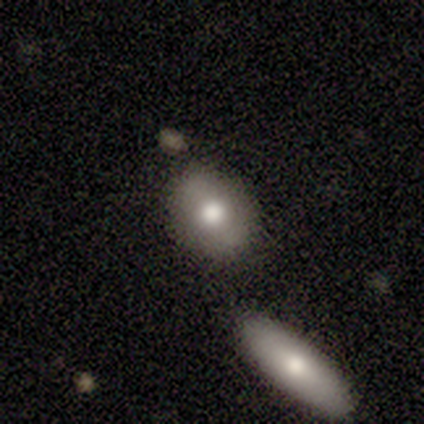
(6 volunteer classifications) Overall: smooth (100%). How rounded: round (50%, tied with in between). Merging: none (83%).